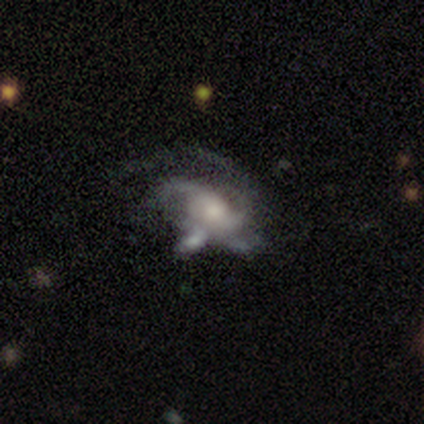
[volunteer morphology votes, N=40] Smooth or featured? featured or disk (85%)
Edge-on disk? no (94%)
Bar? no (72%)
Spiral arms? yes (97%)
Spiral winding? medium (45%)
Spiral arm count? 3 (42%)
Bulge size? moderate (59%)
Merging? major disturbance (36%)